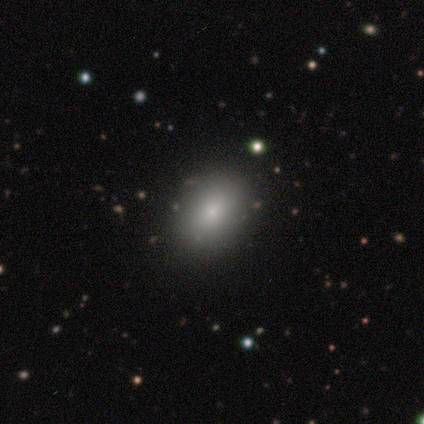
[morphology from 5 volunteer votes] Volunteers were most divided on "smooth or featured": smooth: 80%, featured or disk: 20%, star or artifact: 0%. More confident: how rounded — in between (100%); merging — none (100%).